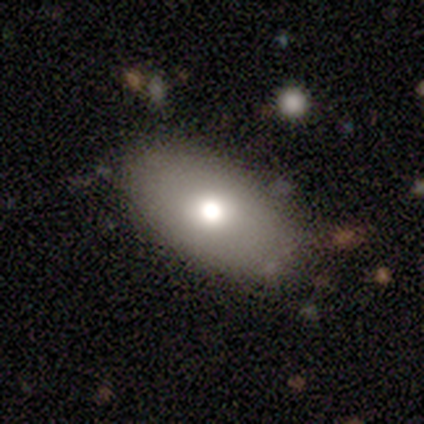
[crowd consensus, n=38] smooth-or-featured: smooth: 79% | featured or disk: 16% | star or artifact: 5%
  how-rounded: in between: 93% | round: 7% | cigar-shaped: 0%
  merging: none: 81% | minor disturbance: 17% | major disturbance: 3% | merger: 0%